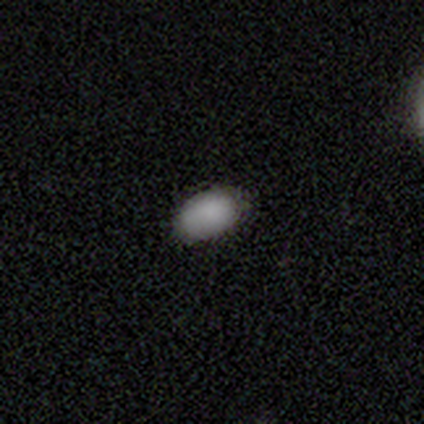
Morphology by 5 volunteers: A smooth galaxy with no disk features (40%, tied with star or artifact) that is in between round and cigar-shaped (100%). Merging: none (33%, tied with minor disturbance and major disturbance).